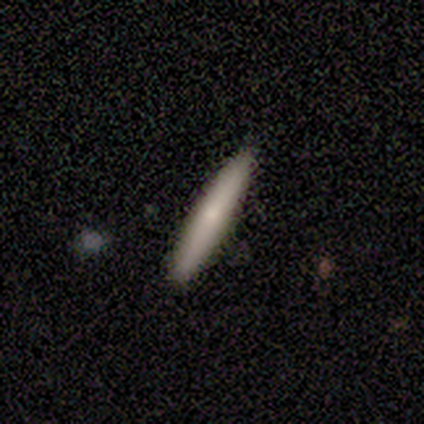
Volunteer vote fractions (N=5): Smooth or featured? 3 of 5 (60%) said smooth. How rounded? 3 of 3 (100%) said cigar-shaped. Merging? 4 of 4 (100%) said none.